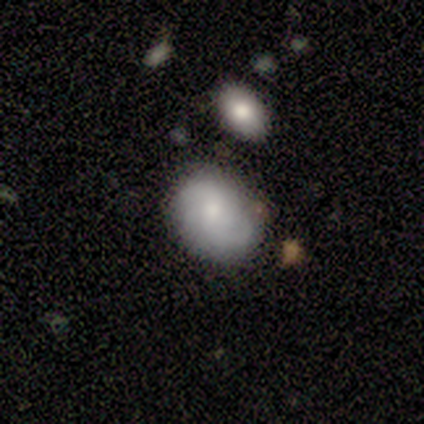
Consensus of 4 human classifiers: A smooth galaxy with no disk features (75%) that is in between round and cigar-shaped (100%). Merging: none (75%).